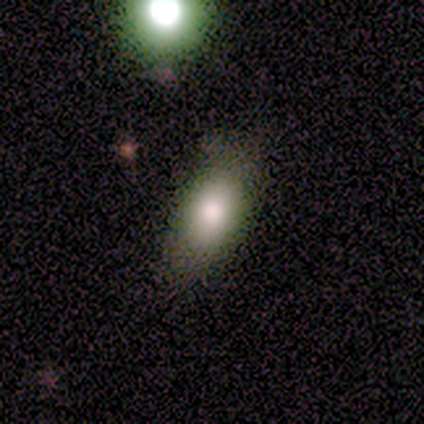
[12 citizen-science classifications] smooth 75%, star or artifact 17%, featured or disk 8%. Down the decision tree: how rounded — in between (89%); merging — none (70%).